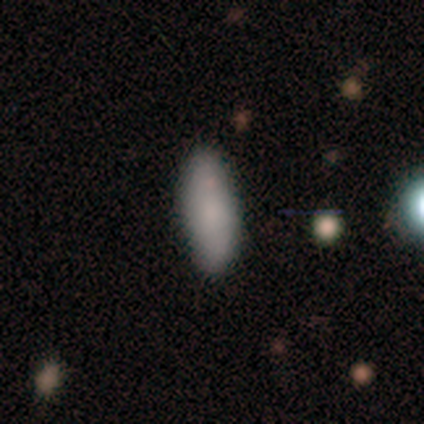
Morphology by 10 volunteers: Overall: smooth (80%). How rounded: in between (62%; cigar-shaped 38%). Merging: none (100%).